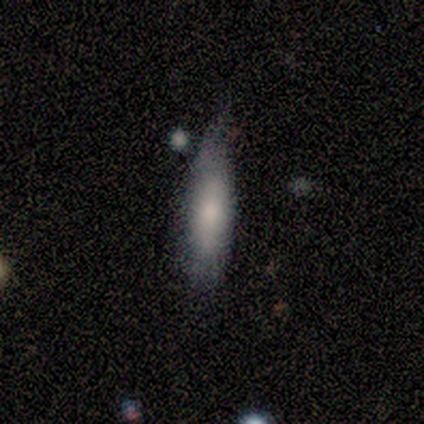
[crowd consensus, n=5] This appears to be a smooth galaxy with no disk features (80%) that is in between round and cigar-shaped (50%, tied with cigar-shaped). Merging: none (50%).